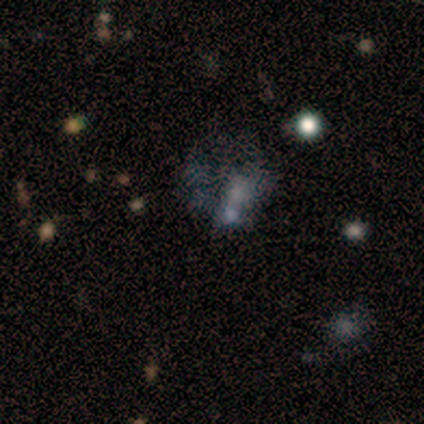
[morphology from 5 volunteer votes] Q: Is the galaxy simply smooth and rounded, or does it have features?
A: smooth — 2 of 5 (40%, tied with star or artifact).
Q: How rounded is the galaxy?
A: in between — 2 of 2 (100%).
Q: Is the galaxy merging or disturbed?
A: merger — 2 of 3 (67%).